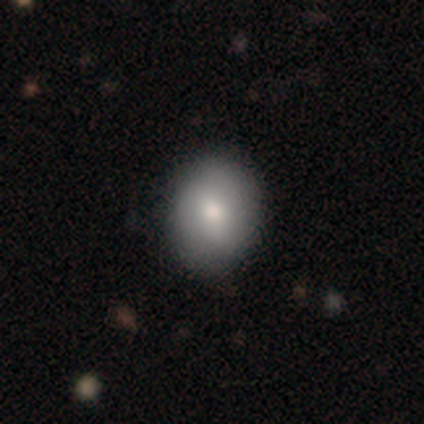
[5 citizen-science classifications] A smooth galaxy with no disk features (80%) that is round (50%, tied with in between).

Vote fractions:
- Smooth or featured? smooth: 80% / featured or disk: 20% / star or artifact: 0%
- How rounded? round: 50% (tied) / in between: 50% (tied) / cigar-shaped: 0%
- Merging? none: 80% / minor disturbance: 20% / major disturbance: 0% / merger: 0%